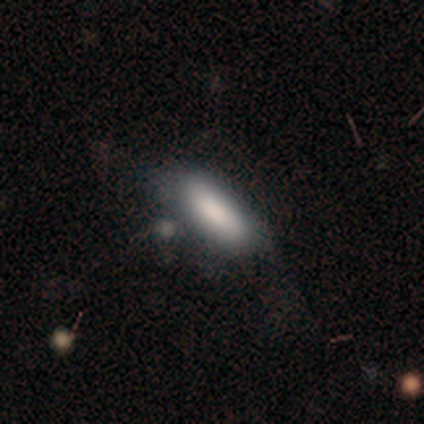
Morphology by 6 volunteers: A smooth galaxy with no disk features (100%) that is in between round and cigar-shaped (67%).

Vote fractions:
- Smooth or featured? smooth: 100% / featured or disk: 0% / star or artifact: 0%
- How rounded? in between: 67% / cigar-shaped: 33% / round: 0%
- Merging? none: 67% / minor disturbance: 33% / major disturbance: 0% / merger: 0%